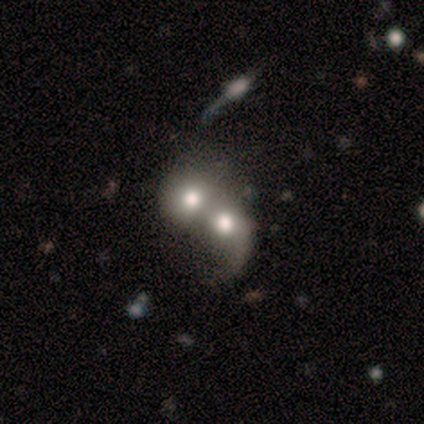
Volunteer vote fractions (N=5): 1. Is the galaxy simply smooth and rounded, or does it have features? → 60% smooth, 20% featured or disk, 20% star or artifact.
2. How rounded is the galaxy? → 100% round, 0% in between, 0% cigar-shaped.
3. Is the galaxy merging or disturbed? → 75% merger, 25% minor disturbance, 0% none, 0% major disturbance.